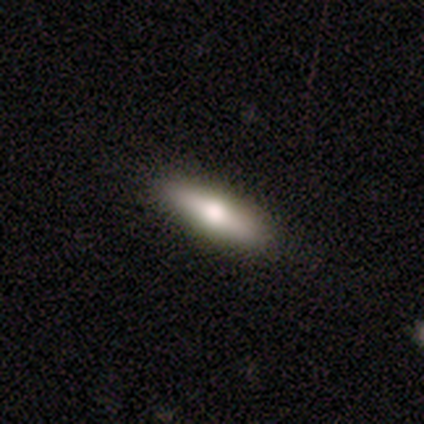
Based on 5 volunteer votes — Smooth or featured?
  - featured or disk: 80% *
  - smooth: 20%
  - star or artifact: 0%
Edge-on disk?
  - yes: 75% *
  - no: 25%
Edge-on bulge?
  - rounded: 100% *
  - boxy: 0%
  - none: 0%
Merging?
  - none: 100% *
  - minor disturbance: 0%
  - major disturbance: 0%
  - merger: 0%